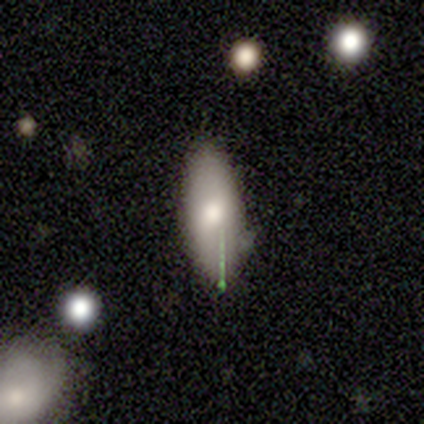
smooth-or-featured: smooth: 78% | featured or disk: 22% | star or artifact: 0%
  how-rounded: in between: 86% | cigar-shaped: 14% | round: 0%
  merging: none: 67% | minor disturbance: 22% | major disturbance: 11% | merger: 0%